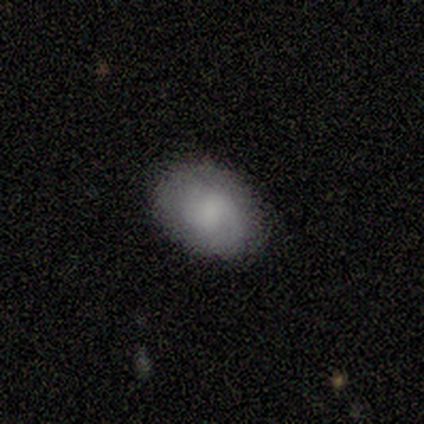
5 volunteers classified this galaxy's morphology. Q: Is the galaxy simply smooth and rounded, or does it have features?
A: smooth — 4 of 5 (80%).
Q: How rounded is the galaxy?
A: in between — 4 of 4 (100%).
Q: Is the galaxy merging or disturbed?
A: none — 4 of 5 (80%).